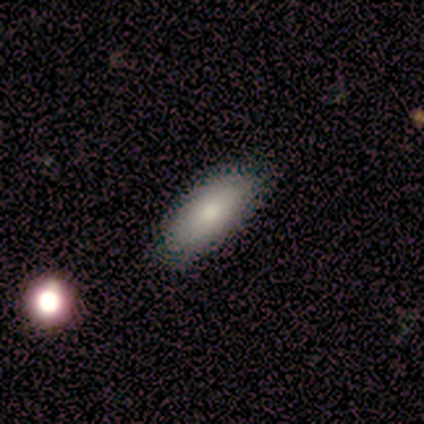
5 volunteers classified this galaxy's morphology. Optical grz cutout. It shows a smooth galaxy with no disk features (100%) that is in between round and cigar-shaped (100%). Merging: none (100%).